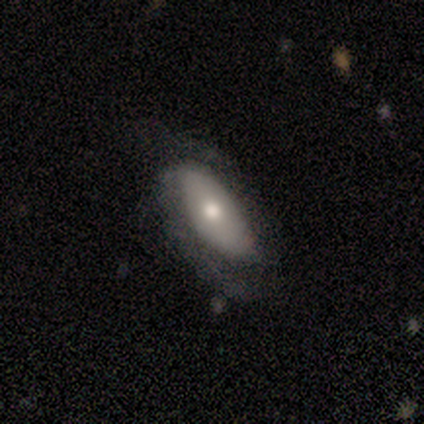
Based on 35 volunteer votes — This is possibly a smooth galaxy (49%). How rounded: clearly in between (82%). Merging: possibly none (53%).